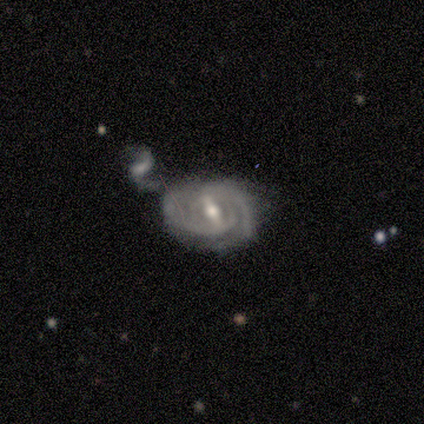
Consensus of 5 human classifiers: Volunteers were most divided on "spiral winding": medium: 60%, tight: 40%, loose: 0%. More confident: smooth or featured — featured or disk (100%); edge-on disk — no (100%); spiral arms — yes (100%); bar — strong (80%); bulge size — moderate (60%); spiral arm count — can't tell (60%); merging — none (60%).